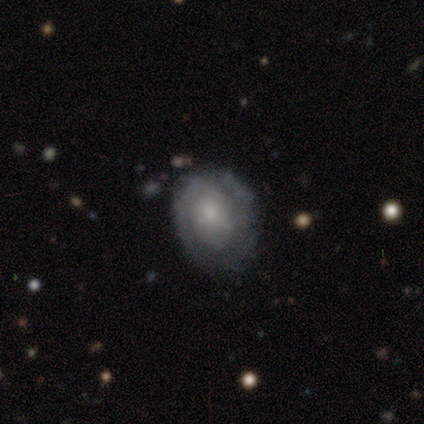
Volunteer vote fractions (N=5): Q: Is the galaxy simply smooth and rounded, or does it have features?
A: featured or disk — 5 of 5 (100%).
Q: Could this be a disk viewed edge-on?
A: no — 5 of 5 (100%).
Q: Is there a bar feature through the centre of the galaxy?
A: no — 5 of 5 (100%).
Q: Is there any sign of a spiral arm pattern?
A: yes — 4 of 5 (80%).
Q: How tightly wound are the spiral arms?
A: tight — 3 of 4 (75%).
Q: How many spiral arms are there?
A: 2 — 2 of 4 (50%).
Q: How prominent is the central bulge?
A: small — 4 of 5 (80%).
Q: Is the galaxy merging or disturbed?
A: none — 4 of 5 (80%).